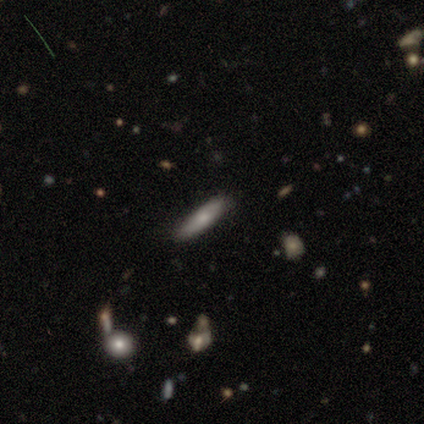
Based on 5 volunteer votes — This appears to be a smooth galaxy with no disk features (100%) that is cigar-shaped (100%). Merging: none (80%).